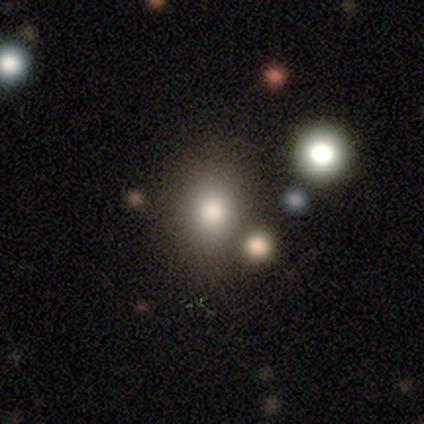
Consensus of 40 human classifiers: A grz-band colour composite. It shows a smooth galaxy with no disk features (80%) that is round (66%). Merging: none (73%).